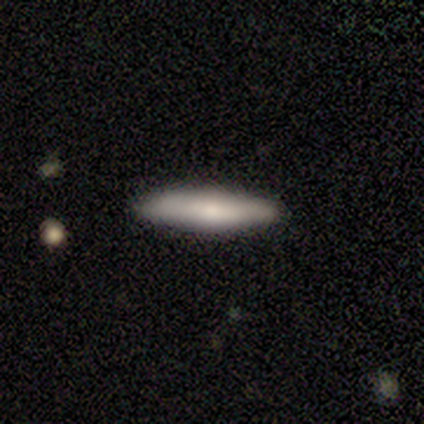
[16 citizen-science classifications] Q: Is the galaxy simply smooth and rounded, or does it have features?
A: smooth — 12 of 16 (75%).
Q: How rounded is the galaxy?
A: cigar-shaped — 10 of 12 (83%).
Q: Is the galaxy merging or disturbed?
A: none — 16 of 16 (100%).